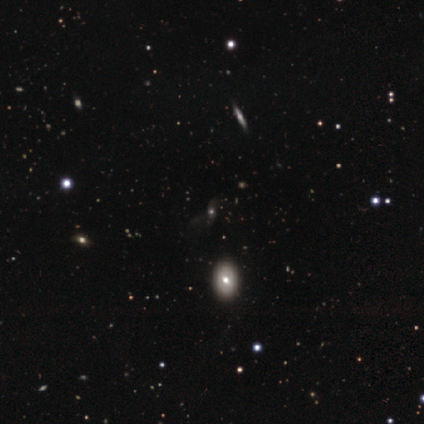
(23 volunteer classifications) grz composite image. It shows a smooth galaxy with no disk features (43%) that is in between round and cigar-shaped (50%). Merging: none (62%).